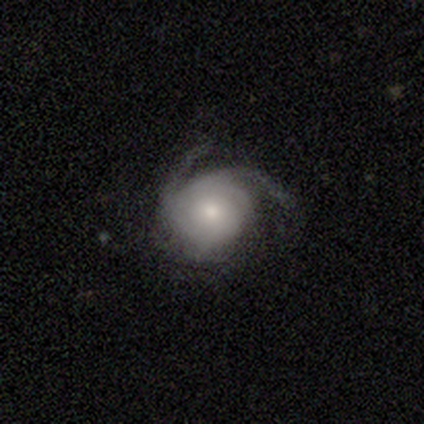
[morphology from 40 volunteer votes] Volunteers were most divided on "spiral winding": tight: 42%, medium: 32%, loose: 26%. More confident: spiral arms — yes (100%); edge-on disk — no (97%); smooth or featured — featured or disk (80%); bar — no (71%); merging — none (68%); spiral arm count — 2 (58%); bulge size — moderate (55%).